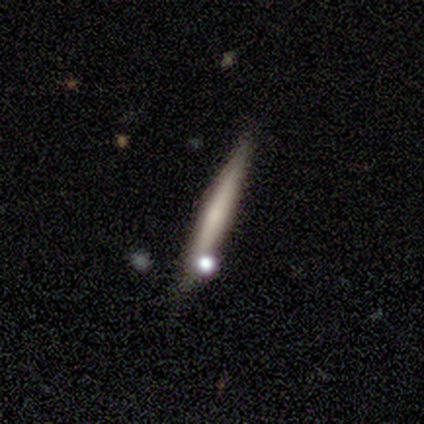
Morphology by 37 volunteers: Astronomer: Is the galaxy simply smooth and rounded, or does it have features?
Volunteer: featured or disk — 54% (runner-up: smooth, 38%).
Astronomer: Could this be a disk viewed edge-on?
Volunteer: yes — 95%.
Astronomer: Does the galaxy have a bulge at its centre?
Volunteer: none — 53% (runner-up: rounded, 42%).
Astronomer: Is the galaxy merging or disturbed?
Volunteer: none — 74%.